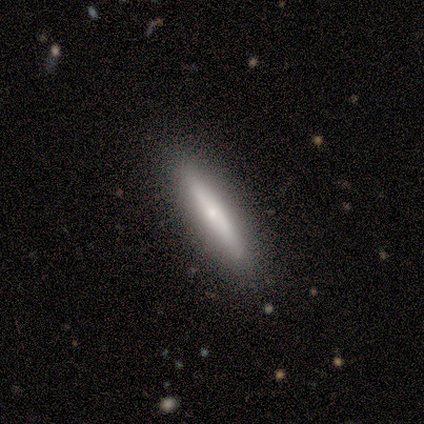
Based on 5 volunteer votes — Smooth or featured: smooth — 40% (tied with star or artifact — 40%)
How rounded: cigar-shaped — 100%
Merging: none — 100%